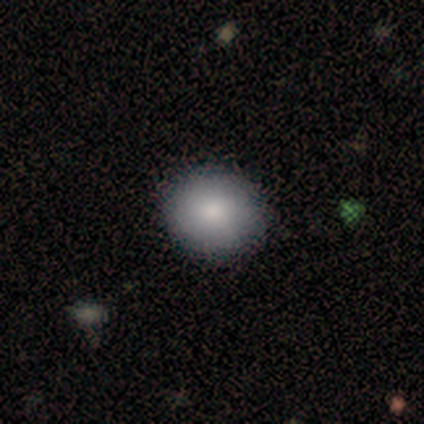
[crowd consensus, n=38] smooth-or-featured: smooth: 84% | featured or disk: 13% | star or artifact: 3%
  how-rounded: round: 78% | in between: 22% | cigar-shaped: 0%
  merging: none: 86% | minor disturbance: 5% | major disturbance: 0% | merger: 0%